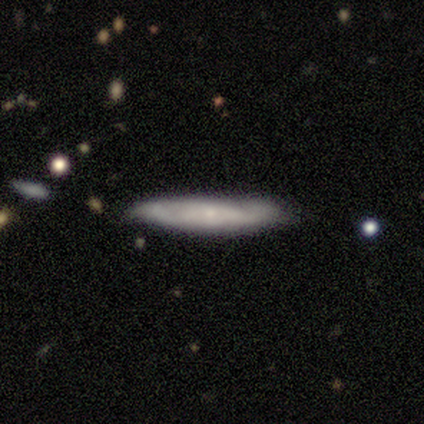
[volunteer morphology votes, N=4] smooth_or_featured: smooth (p=0.75) [alt: star or artifact p=0.25]
how_rounded: cigar-shaped (p=0.67) [alt: in between p=0.33]
merging: none (p=0.67) [alt: minor disturbance p=0.33]